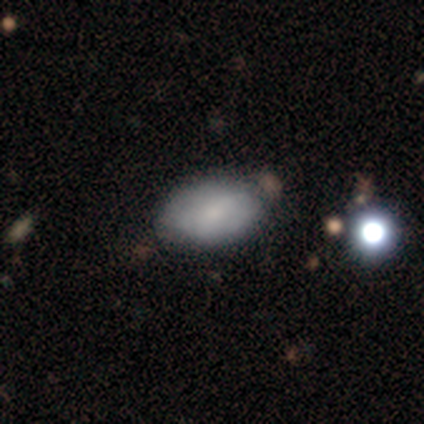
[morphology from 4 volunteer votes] This is clearly a smooth galaxy (100%). How rounded: clearly in between (100%). Merging: possibly minor disturbance (50%).